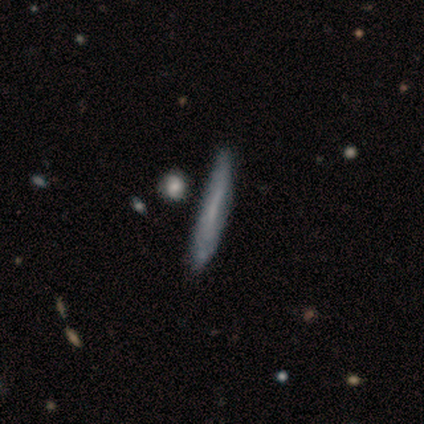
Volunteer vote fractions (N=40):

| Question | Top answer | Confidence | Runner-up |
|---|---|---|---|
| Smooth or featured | featured or disk | 50% | smooth (48%) |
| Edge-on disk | yes | 80% | no (20%) |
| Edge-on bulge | none | 94% | rounded (6%) |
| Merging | none | 59% | minor disturbance (18%) |